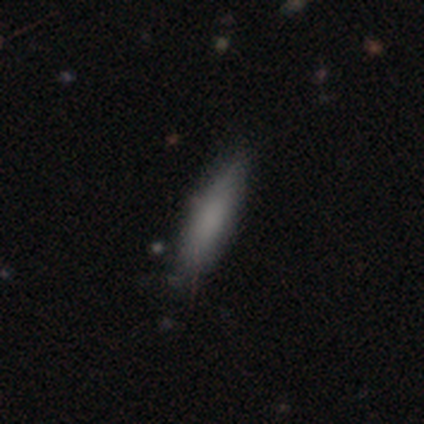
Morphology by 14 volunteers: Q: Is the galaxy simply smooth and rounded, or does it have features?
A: smooth — 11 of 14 (79%).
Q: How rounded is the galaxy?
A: cigar-shaped — 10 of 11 (91%).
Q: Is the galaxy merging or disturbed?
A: none — 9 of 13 (69%).